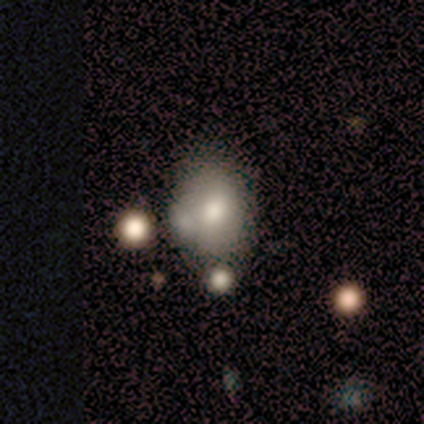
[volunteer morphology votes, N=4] Volunteers were most divided on "merging": none: 50%, minor disturbance: 25%, merger: 25%, major disturbance: 0%. More confident: smooth or featured — smooth (75%); how rounded — in between (67%).